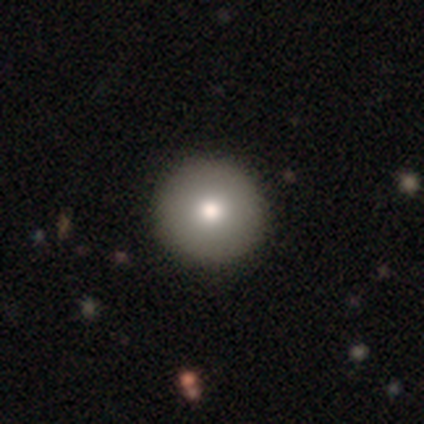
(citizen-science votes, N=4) Q: Smooth or featured?
A: smooth (75%); runner-up: featured or disk (25%)
Q: How rounded?
A: round (100%)
Q: Merging?
A: none (100%)